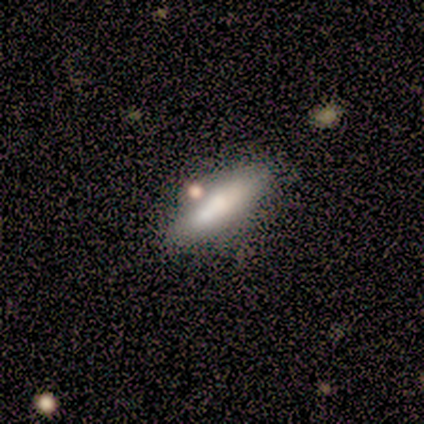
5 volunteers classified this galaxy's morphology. A smooth galaxy with no disk features (100%) that is cigar-shaped (60%).

Vote fractions:
- Smooth or featured? smooth: 100% / featured or disk: 0% / star or artifact: 0%
- How rounded? cigar-shaped: 60% / in between: 40% / round: 0%
- Merging? none: 80% / minor disturbance: 20% / major disturbance: 0% / merger: 0%